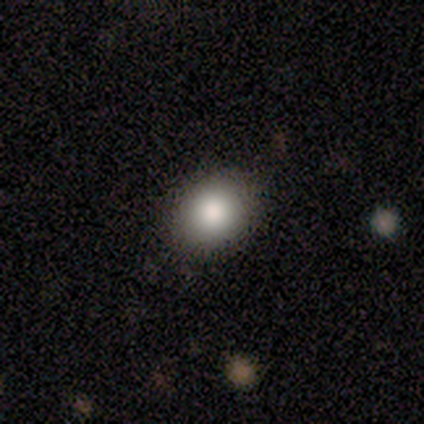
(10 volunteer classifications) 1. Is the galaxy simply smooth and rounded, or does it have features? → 90% smooth, 10% featured or disk, 0% star or artifact.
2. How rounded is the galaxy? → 56% round, 44% in between, 0% cigar-shaped.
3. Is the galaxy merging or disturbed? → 80% none, 20% minor disturbance, 0% major disturbance, 0% merger.